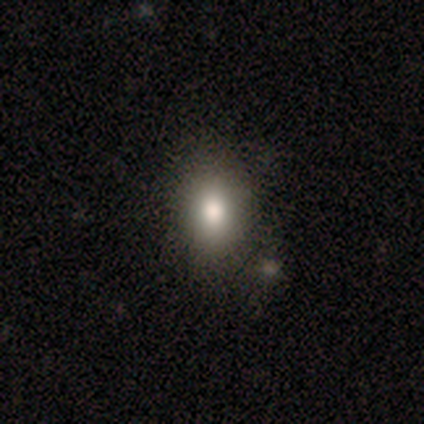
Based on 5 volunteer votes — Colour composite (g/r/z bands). It shows a smooth galaxy with no disk features (40%, tied with star or artifact) that is round (50%, tied with in between). Merging: none (67%).